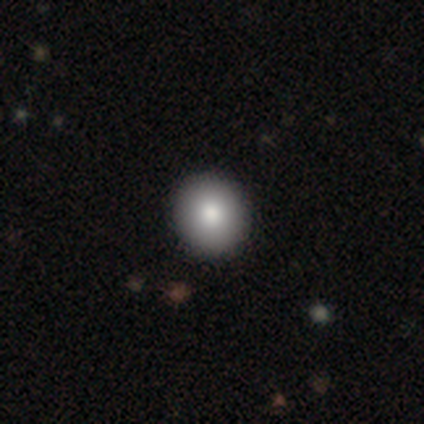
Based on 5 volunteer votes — Overall: smooth (100%). How rounded: round (80%). Merging: none (100%).